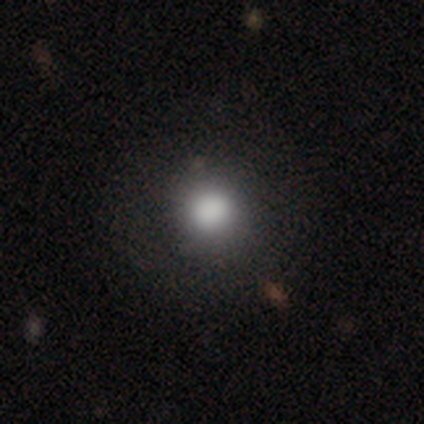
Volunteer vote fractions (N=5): Smooth or featured? 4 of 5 (80%) said smooth. How rounded? 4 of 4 (100%) said round. Merging? 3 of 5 (60%) said none.